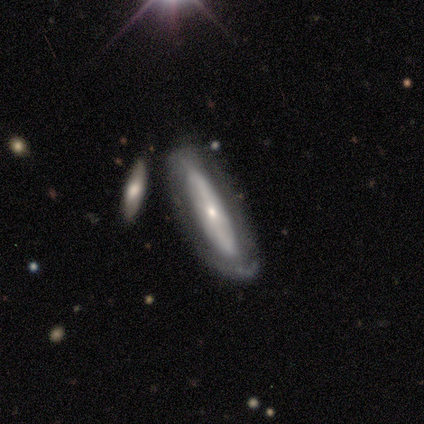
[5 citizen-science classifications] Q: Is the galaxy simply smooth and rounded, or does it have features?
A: smooth — 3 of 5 (60%).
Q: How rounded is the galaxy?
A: cigar-shaped — 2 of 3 (67%).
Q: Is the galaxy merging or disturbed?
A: minor disturbance — 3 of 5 (60%).